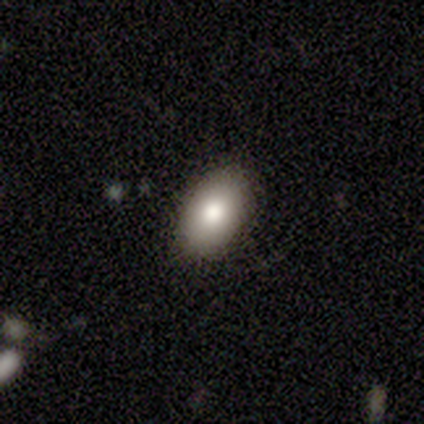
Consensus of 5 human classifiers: A smooth galaxy with no disk features (100%) that is in between round and cigar-shaped (100%). Merging: none (100%).